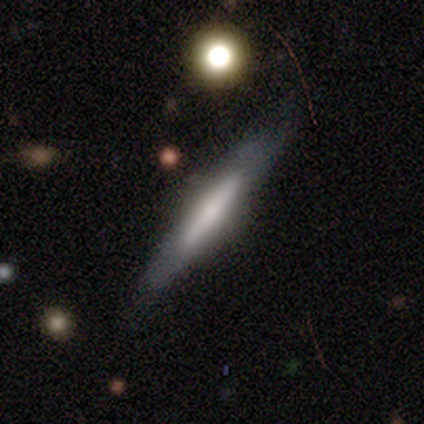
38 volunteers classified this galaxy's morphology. Smooth or featured: featured or disk — 63% (smooth — 32%)
Edge-on disk: yes — 92% (no — 8%)
Edge-on bulge: none — 41% (rounded — 32%)
Merging: none — 83% (minor disturbance — 14%)